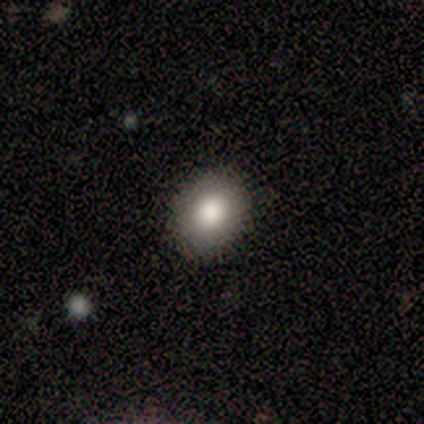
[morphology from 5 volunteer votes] This appears to be a smooth galaxy with no disk features (80%) that is round (50%, tied with in between). Merging: none (100%).